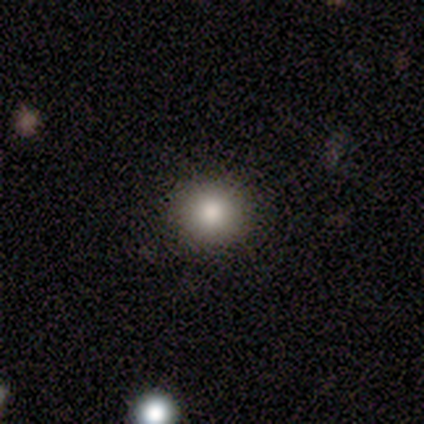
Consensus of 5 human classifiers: Smooth or featured: smooth — 80% (star or artifact — 20%)
How rounded: round — 100%
Merging: none — 100%